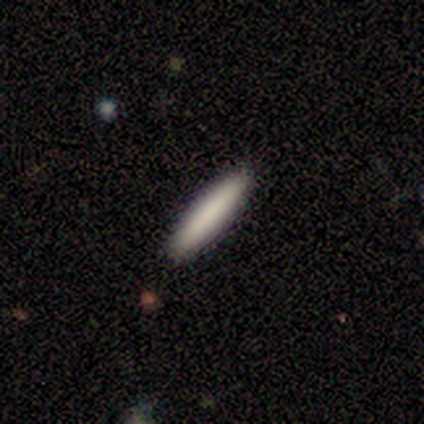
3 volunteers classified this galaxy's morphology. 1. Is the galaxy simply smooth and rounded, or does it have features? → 67% smooth, 33% featured or disk, 0% star or artifact.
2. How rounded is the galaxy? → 100% cigar-shaped, 0% round, 0% in between.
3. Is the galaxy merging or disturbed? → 67% none, 33% minor disturbance, 0% major disturbance, 0% merger.